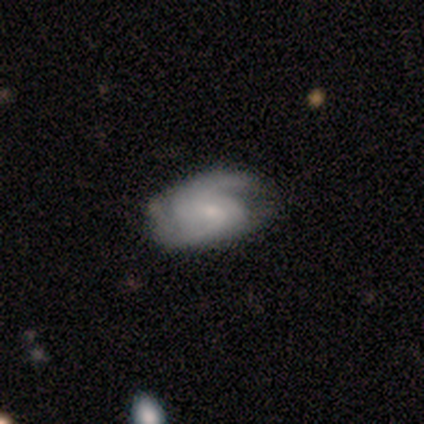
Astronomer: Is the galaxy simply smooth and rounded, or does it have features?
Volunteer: featured or disk — 70%.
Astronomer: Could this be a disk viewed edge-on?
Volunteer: no — 100%.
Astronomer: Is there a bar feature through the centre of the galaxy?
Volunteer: weak — 54% (runner-up: no, 46%).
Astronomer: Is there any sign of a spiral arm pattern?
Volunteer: yes — 100%.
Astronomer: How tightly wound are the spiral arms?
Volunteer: medium — 57%.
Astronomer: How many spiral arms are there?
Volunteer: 2 — 75%.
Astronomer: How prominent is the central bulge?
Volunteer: small — 82%.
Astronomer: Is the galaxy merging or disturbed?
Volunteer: none — 65%.